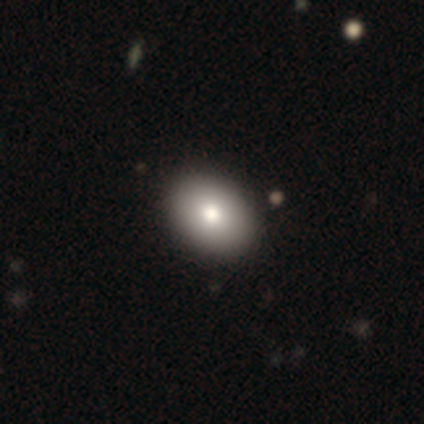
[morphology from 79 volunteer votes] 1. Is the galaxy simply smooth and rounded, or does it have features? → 87% smooth, 9% featured or disk, 4% star or artifact.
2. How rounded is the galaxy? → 77% in between, 23% round, 0% cigar-shaped.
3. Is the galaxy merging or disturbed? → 49% none, 1% minor disturbance, 1% major disturbance, 0% merger.